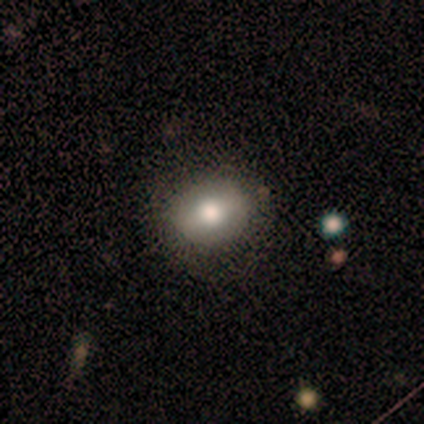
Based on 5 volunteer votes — Q: Smooth or featured?
A: smooth (40%); tied with: star or artifact (40%)
Q: How rounded?
A: in between (100%)
Q: Merging?
A: none (100%)